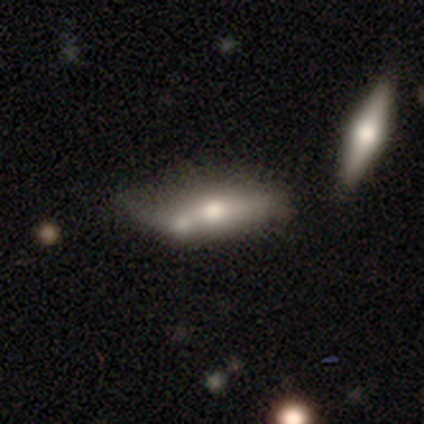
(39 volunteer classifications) Volunteers were most divided on "how rounded": in between: 55%, cigar-shaped: 45%, round: 0%. More confident: smooth or featured — smooth (56%); merging — merger (53%).